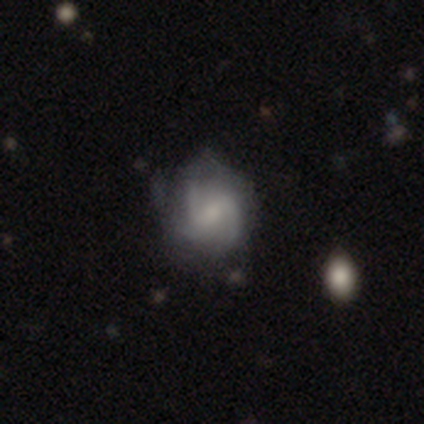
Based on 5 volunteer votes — This appears to be a featured or disk galaxy (80%) with a weak bar (75%), 2 (50%, tied with 3) loose (50%) spiral arms (100%) and a moderate central bulge (50%). Merging: none (75%).